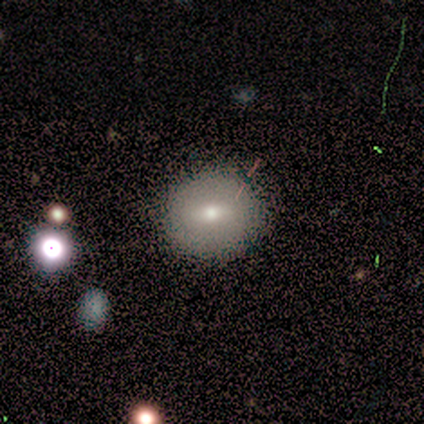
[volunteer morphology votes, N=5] Smooth or featured?
  - smooth: 60% *
  - featured or disk: 20%
  - star or artifact: 20%
How rounded?
  - round: 100% *
  - in between: 0%
  - cigar-shaped: 0%
Merging?
  - none: 100% *
  - minor disturbance: 0%
  - major disturbance: 0%
  - merger: 0%